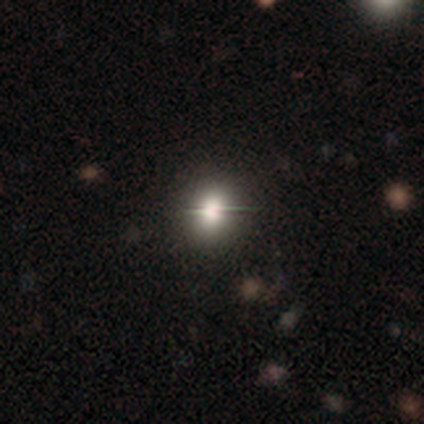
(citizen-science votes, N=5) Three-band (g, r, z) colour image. It shows a smooth galaxy with no disk features (80%) that is round (50%, tied with in between). Merging: none (75%).